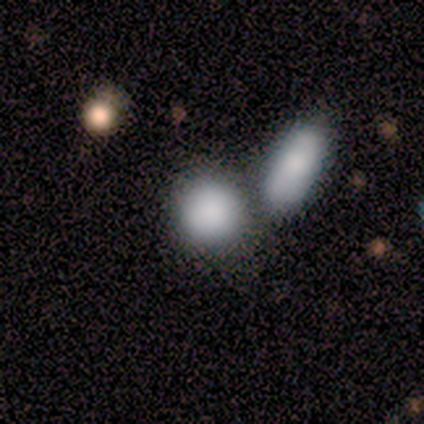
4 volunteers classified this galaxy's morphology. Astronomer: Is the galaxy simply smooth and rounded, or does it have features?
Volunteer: smooth — 75%.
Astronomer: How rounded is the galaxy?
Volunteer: round — 67%.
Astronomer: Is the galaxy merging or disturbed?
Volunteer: merger — 50%.